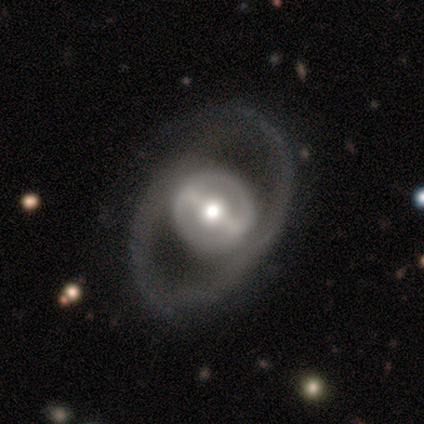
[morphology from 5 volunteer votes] Smooth or featured: featured or disk — 80% (smooth — 20%)
Edge-on disk: no — 100%
Bar: weak — 50% (strong — 25%)
Spiral arms: yes — 50% (tied with no — 50%)
Spiral winding: medium — 50% (tied with loose — 50%)
Spiral arm count: 1 — 100%
Bulge size: moderate — 50% (large — 25%)
Merging: none — 80% (minor disturbance — 20%)